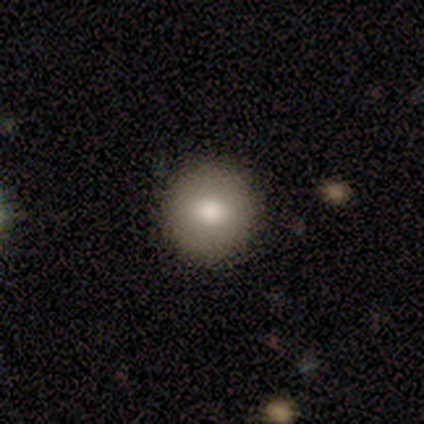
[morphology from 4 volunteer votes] Smooth or featured?
  - smooth: 50% * (tied)
  - featured or disk: 50% * (tied)
  - star or artifact: 0%
How rounded?
  - round: 100% *
  - in between: 0%
  - cigar-shaped: 0%
Merging?
  - none: 100% *
  - minor disturbance: 0%
  - major disturbance: 0%
  - merger: 0%